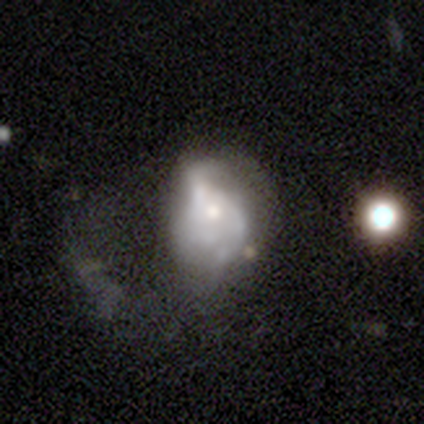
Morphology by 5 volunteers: This is clearly a featured or disk galaxy (100%). It is clearly not viewed edge-on (100%). Bar: clearly no (80%). Spiral arm pattern: clearly no (100%). Central bulge: clearly small (80%). Merging: marginally none (40%, tied with major disturbance).